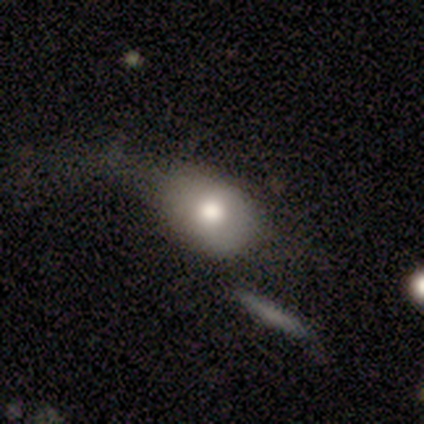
smooth 60%, featured or disk 40%, star or artifact 0%. Down the decision tree: how rounded — in between (67%); merging — none (40%, tied with merger).